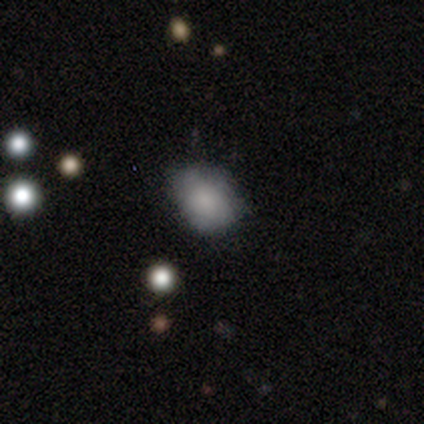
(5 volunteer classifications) This appears to be a smooth galaxy with no disk features (80%) that is round (75%). Merging: none (80%).